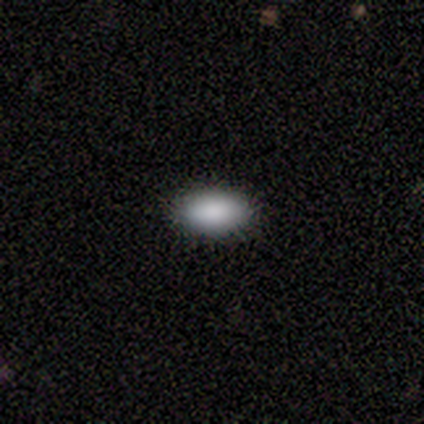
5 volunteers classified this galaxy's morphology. Smooth or featured?
  - smooth: 100% *
  - featured or disk: 0%
  - star or artifact: 0%
How rounded?
  - in between: 100% *
  - round: 0%
  - cigar-shaped: 0%
Merging?
  - none: 80% *
  - major disturbance: 20%
  - minor disturbance: 0%
  - merger: 0%